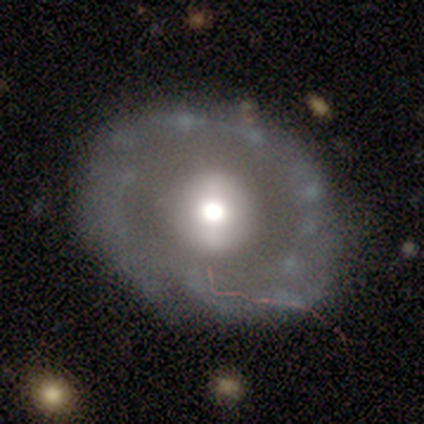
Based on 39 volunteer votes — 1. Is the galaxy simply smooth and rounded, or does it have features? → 85% featured or disk, 15% smooth, 0% star or artifact.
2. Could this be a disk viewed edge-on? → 100% no, 0% yes.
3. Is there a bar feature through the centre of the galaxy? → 61% no, 21% weak, 18% strong.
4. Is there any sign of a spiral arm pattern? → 73% no, 27% yes.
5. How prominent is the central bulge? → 52% moderate, 33% large, 9% dominant, 6% small, 0% none.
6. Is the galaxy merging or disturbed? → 49% none, 13% minor disturbance, 8% merger, 5% major disturbance.